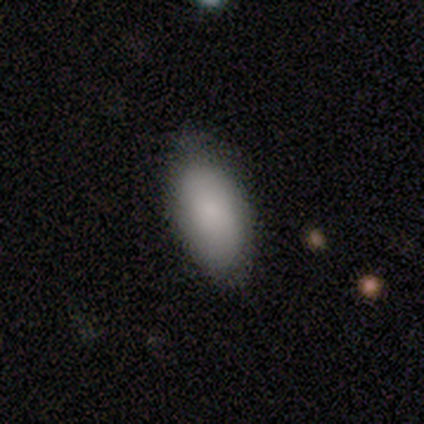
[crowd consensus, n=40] Volunteers were most divided on "smooth or featured": smooth: 92%, star or artifact: 5%, featured or disk: 2%. More confident: merging — none (95%); how rounded — in between (95%).